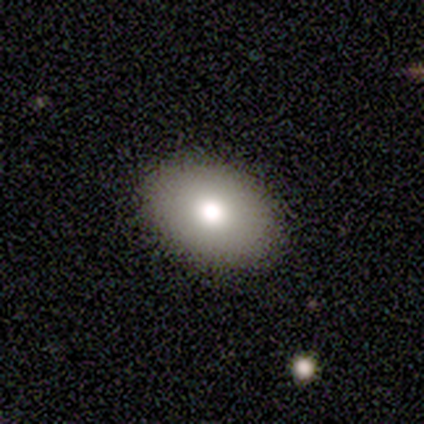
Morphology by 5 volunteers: Q: Smooth or featured?
A: smooth (80%); runner-up: featured or disk (20%)
Q: How rounded?
A: in between (100%)
Q: Merging?
A: none (80%); runner-up: minor disturbance (20%)